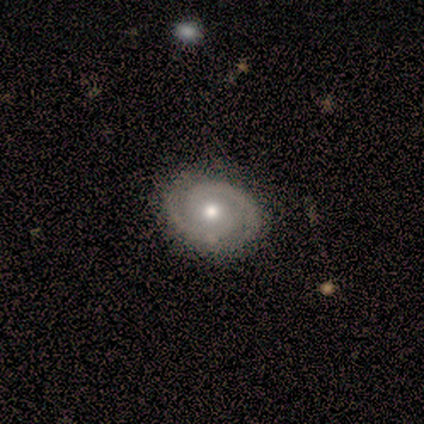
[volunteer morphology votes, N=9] smooth_or_featured: featured or disk (p=0.78) [alt: smooth p=0.11]
disk_edge_on: no (p=1.00)
bar: no (p=0.71) [alt: strong p=0.14]
has_spiral_arms: yes (p=0.86) [alt: no p=0.14]
spiral_winding: tight (p=0.50) [alt: medium p=0.33]
spiral_arm_count: 2 (p=1.00)
bulge_size: small (p=0.57) [alt: moderate p=0.43]
merging: none (p=0.88) [alt: minor disturbance p=0.12]